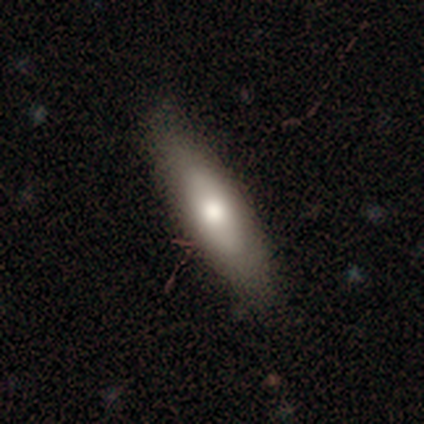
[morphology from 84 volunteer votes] Q: Smooth or featured?
A: smooth (68%); runner-up: featured or disk (27%)
Q: How rounded?
A: cigar-shaped (65%); runner-up: in between (35%)
Q: Merging?
A: none (84%); runner-up: minor disturbance (10%)